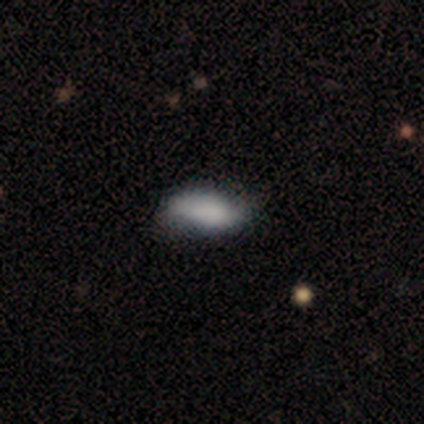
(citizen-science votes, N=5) smooth-or-featured: smooth: 100% | featured or disk: 0% | star or artifact: 0%
  how-rounded: in between: 80% | cigar-shaped: 20% | round: 0%
  merging: minor disturbance: 60% | none: 40% | major disturbance: 0% | merger: 0%